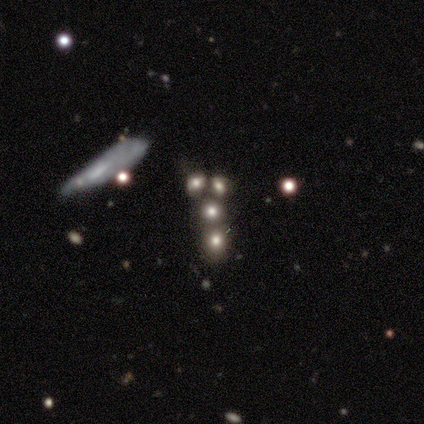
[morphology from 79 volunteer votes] A smooth galaxy with no disk features (44%) that is round (74%). Merging: merger (46%).